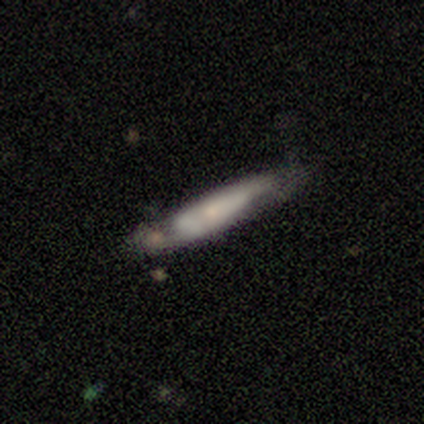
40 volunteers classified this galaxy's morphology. Q: Smooth or featured?
A: featured or disk (55%); runner-up: smooth (42%)
Q: Edge-on disk?
A: yes (77%); runner-up: no (23%)
Q: Edge-on bulge?
A: rounded (53%); runner-up: none (29%)
Q: Merging?
A: none (54%); runner-up: minor disturbance (33%)